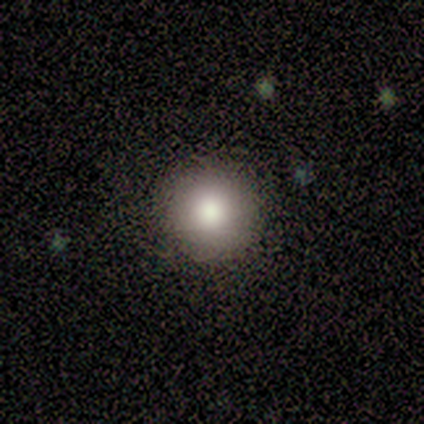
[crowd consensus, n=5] Volunteers were most divided on "how rounded": round: 75%, in between: 25%, cigar-shaped: 0%. More confident: smooth or featured — smooth (80%); merging — none (75%).